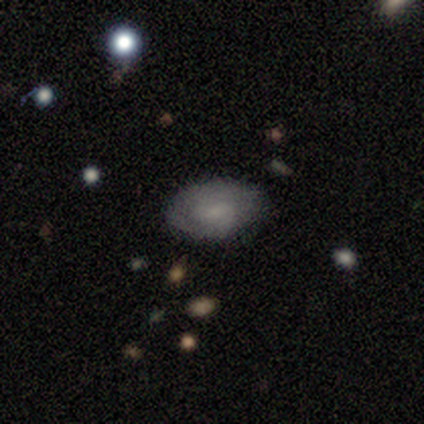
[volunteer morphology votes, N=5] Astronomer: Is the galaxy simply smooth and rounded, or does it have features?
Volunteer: featured or disk — 80%.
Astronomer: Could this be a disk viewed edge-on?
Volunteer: no — 100%.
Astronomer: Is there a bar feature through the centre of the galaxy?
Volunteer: weak — 75%.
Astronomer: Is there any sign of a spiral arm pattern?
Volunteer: yes — 75%.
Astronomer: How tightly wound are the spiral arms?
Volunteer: tight — 33%, tied with medium and loose at 33%.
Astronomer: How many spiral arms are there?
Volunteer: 2 — 67%.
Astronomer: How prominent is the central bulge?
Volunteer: small — 50%.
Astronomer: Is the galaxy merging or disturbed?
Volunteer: none — 60% (runner-up: minor disturbance, 40%).